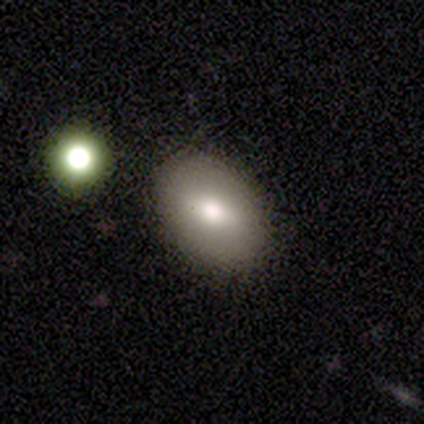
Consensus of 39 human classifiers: Volunteers were most divided on "smooth or featured": smooth: 79%, star or artifact: 15%, featured or disk: 5%. More confident: how rounded — in between (94%); merging — none (91%).